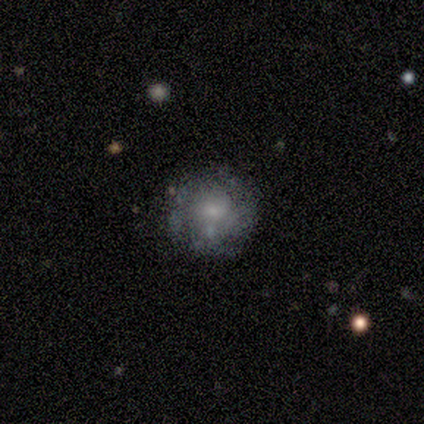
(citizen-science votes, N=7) A featured or disk galaxy (71%) with no bar (100%), no spiral arms (60%) and a moderate central bulge (60%).

Vote fractions:
- Smooth or featured? featured or disk: 71% / smooth: 29% / star or artifact: 0%
- Edge-on disk? no: 100% / yes: 0%
- Bar? no: 100% / strong: 0% / weak: 0%
- Spiral arms? no: 60% / yes: 40%
- Bulge size? moderate: 60% / small: 20% / none: 20% / dominant: 0% / large: 0%
- Merging? none: 71% / major disturbance: 14% / merger: 14% / minor disturbance: 0%